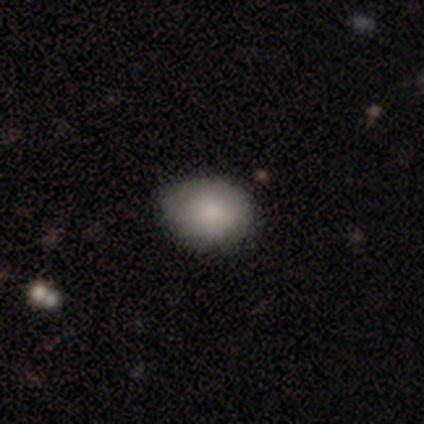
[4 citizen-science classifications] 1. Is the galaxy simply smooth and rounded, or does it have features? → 75% smooth, 25% star or artifact, 0% featured or disk.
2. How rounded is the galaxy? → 67% round, 33% in between, 0% cigar-shaped.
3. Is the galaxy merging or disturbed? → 100% none, 0% minor disturbance, 0% major disturbance, 0% merger.